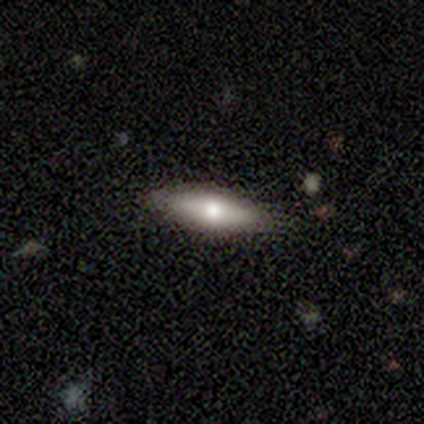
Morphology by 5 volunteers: smooth 80%, featured or disk 20%, star or artifact 0%. Down the decision tree: how rounded — in between (50%, tied with cigar-shaped); merging — none (100%).